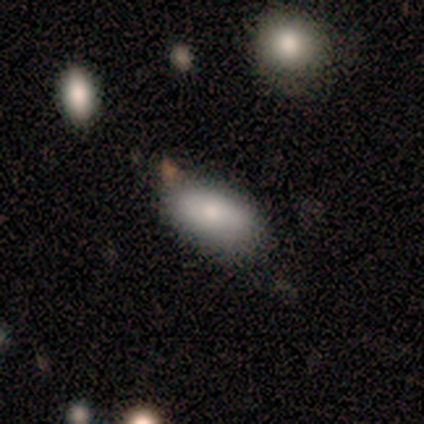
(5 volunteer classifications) A smooth galaxy with no disk features (100%) that is in between round and cigar-shaped (100%).

Vote fractions:
- Smooth or featured? smooth: 100% / featured or disk: 0% / star or artifact: 0%
- How rounded? in between: 100% / round: 0% / cigar-shaped: 0%
- Merging? none: 60% / minor disturbance: 40% / major disturbance: 0% / merger: 0%